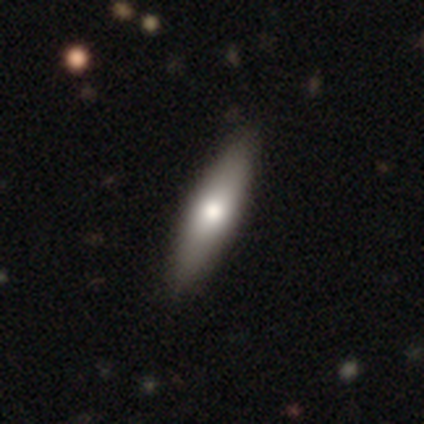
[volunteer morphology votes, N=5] A featured or disk galaxy (60%) viewed edge-on (67%) with a rounded central bulge (100%). Merging: none (100%).